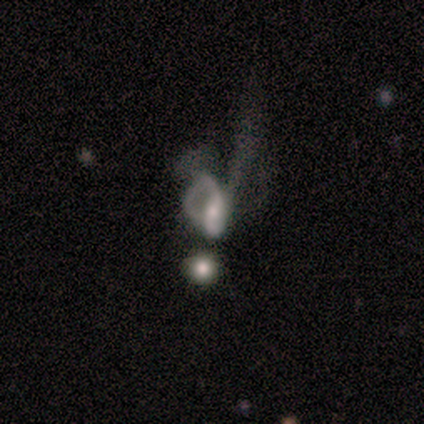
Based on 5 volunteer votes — Smooth or featured?
  - smooth: 40% * (tied)
  - featured or disk: 40% * (tied)
  - star or artifact: 20%
How rounded?
  - round: 50% * (tied)
  - in between: 50% * (tied)
  - cigar-shaped: 0%
Merging?
  - merger: 50% *
  - none: 25%
  - major disturbance: 25%
  - minor disturbance: 0%